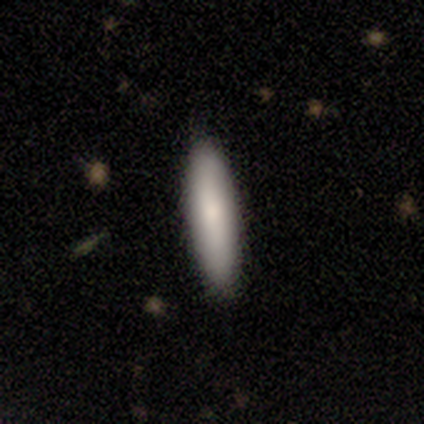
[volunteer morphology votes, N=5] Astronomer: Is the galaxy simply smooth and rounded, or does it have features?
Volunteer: smooth — 80%.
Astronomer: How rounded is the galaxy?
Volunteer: cigar-shaped — 75%.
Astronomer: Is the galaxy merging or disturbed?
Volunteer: none — 80%.